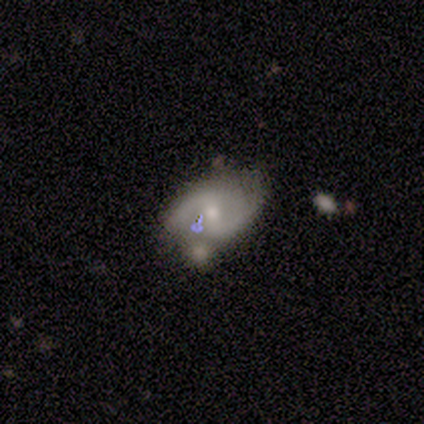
A featured or disk galaxy (80%) with a weak bar (75%), 2 (100%) medium (67%) spiral arms (75%) and a moderate central bulge (50%, tied with small).

Vote fractions:
- Smooth or featured? featured or disk: 80% / smooth: 20% / star or artifact: 0%
- Edge-on disk? no: 100% / yes: 0%
- Bar? weak: 75% / no: 25% / strong: 0%
- Spiral arms? yes: 75% / no: 25%
- Spiral winding? medium: 67% / loose: 33% / tight: 0%
- Spiral arm count? 2: 100% / 1: 0% / 3: 0% / 4: 0% / more than 4: 0% / can't tell: 0%
- Bulge size? moderate: 50% (tied) / small: 50% (tied) / dominant: 0% / large: 0% / none: 0%
- Merging? none: 80% / merger: 20% / minor disturbance: 0% / major disturbance: 0%